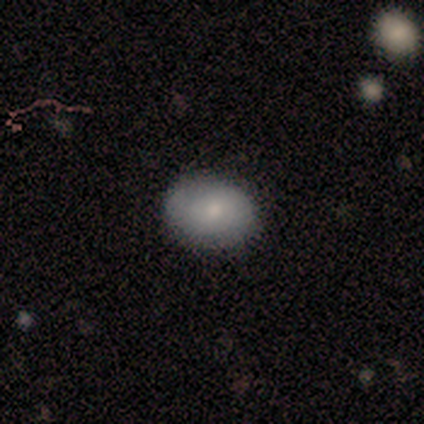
Smooth or featured? 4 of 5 (80%) said smooth. How rounded? 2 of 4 (50%, tied with in between) said round. Merging? 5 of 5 (100%) said none.